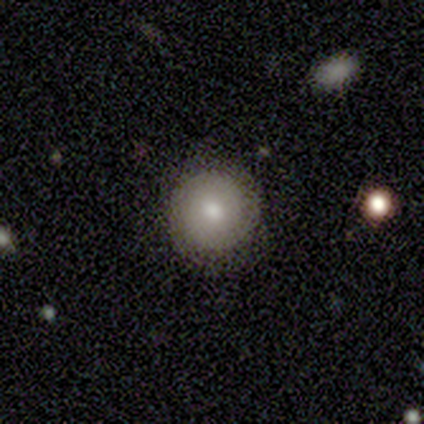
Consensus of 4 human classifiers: Morphology: type=smooth (50%); roundness=round (100%); merging=none (67%).